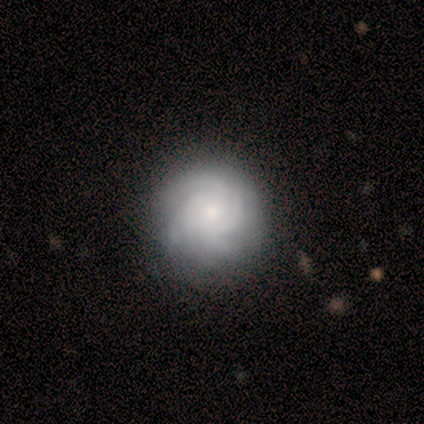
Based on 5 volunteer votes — smooth-or-featured: featured or disk: 80% | smooth: 20% | star or artifact: 0%
  disk-edge-on: no: 100% | yes: 0%
    bar: strong: 50% (tied) | no: 50% (tied) | weak: 0%
    has-spiral-arms: yes: 100% | no: 0%
      spiral-winding: tight: 50% (tied) | medium: 50% (tied) | loose: 0%
      spiral-arm-count: more than 4: 75% | 4: 25% | 1: 0% | 2: 0% | 3: 0% | can't tell: 0%
    bulge-size: small: 75% | moderate: 25% | dominant: 0% | large: 0% | none: 0%
  merging: none: 60% | minor disturbance: 40% | major disturbance: 0% | merger: 0%